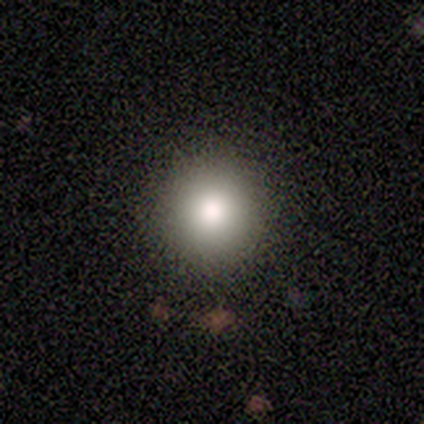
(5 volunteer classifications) Smooth or featured? smooth (80%)
How rounded? round (75%)
Merging? none (80%)